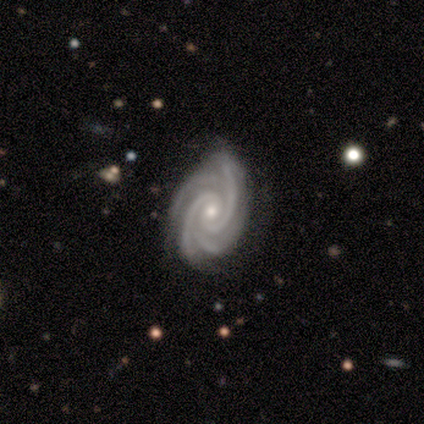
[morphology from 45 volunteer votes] Smooth or featured?
  - featured or disk: 91% *
  - smooth: 4%
  - star or artifact: 4%
Edge-on disk?
  - no: 100% *
  - yes: 0%
Bar?
  - no: 61% *
  - weak: 34%
  - strong: 5%
Spiral arms?
  - yes: 100% *
  - no: 0%
Spiral winding?
  - tight: 76% *
  - medium: 24%
  - loose: 0%
Spiral arm count?
  - 4: 78% *
  - 2: 12%
  - 3: 10%
  - 1: 0%
  - more than 4: 0%
  - can't tell: 0%
Bulge size?
  - moderate: 49% *
  - small: 46%
  - dominant: 2%
  - large: 2%
  - none: 0%
Merging?
  - none: 72% *
  - minor disturbance: 21%
  - major disturbance: 5%
  - merger: 2%